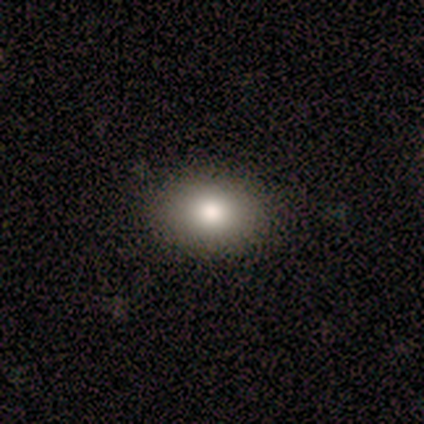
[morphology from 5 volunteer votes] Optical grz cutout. It shows a smooth galaxy with no disk features (60%) that is in between round and cigar-shaped (67%). Merging: none (80%).